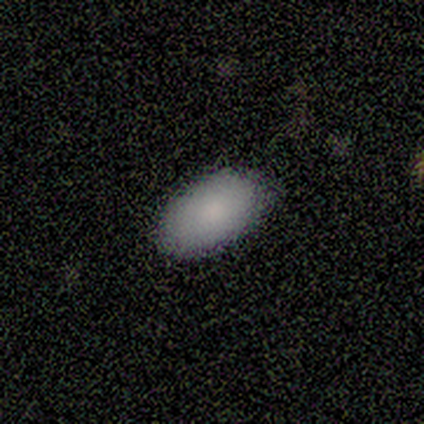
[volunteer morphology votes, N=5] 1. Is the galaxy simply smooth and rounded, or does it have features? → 100% smooth, 0% featured or disk, 0% star or artifact.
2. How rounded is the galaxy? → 100% in between, 0% round, 0% cigar-shaped.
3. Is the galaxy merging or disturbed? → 100% none, 0% minor disturbance, 0% major disturbance, 0% merger.